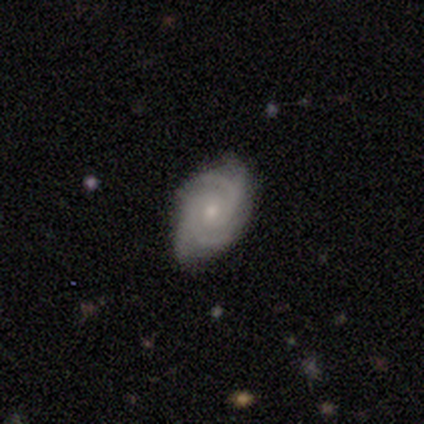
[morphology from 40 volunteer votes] A featured or disk galaxy (85%) with no bar (67%), 4 (39%) tight (58%) spiral arms (100%) and a small central bulge (67%). Merging: none (80%).